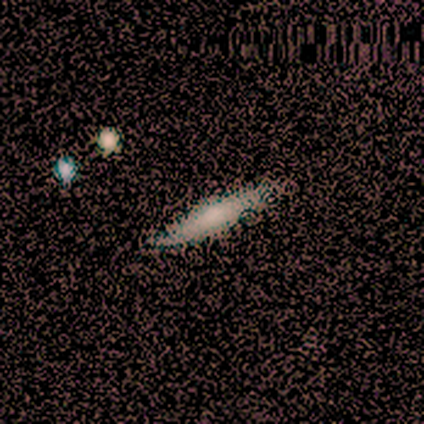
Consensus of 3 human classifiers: Overall: smooth (33%, tied with featured or disk and star or artifact). How rounded: cigar-shaped (100%). Merging: none (100%).